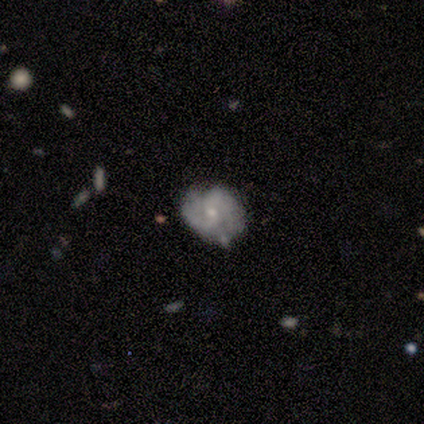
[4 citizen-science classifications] smooth-or-featured: featured or disk: 75% | smooth: 25% | star or artifact: 0%
  disk-edge-on: no: 100% | yes: 0%
    bar: weak: 67% | no: 33% | strong: 0%
    has-spiral-arms: yes: 100% | no: 0%
      spiral-winding: tight: 67% | medium: 33% | loose: 0%
      spiral-arm-count: 2: 100% | 1: 0% | 3: 0% | 4: 0% | more than 4: 0% | can't tell: 0%
    bulge-size: small: 100% | dominant: 0% | large: 0% | moderate: 0% | none: 0%
  merging: none: 100% | minor disturbance: 0% | major disturbance: 0% | merger: 0%